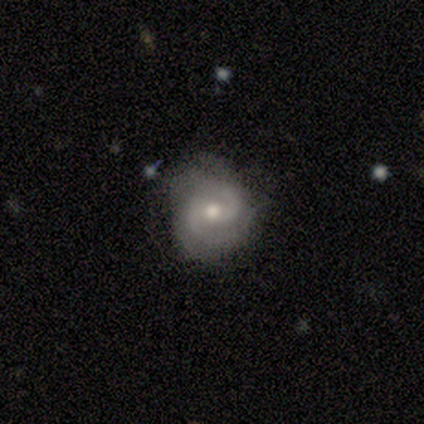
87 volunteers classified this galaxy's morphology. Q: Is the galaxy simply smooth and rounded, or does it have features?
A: featured or disk — 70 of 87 (80%).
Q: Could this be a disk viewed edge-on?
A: no — 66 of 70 (94%).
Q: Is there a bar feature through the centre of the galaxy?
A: no — 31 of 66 (47%).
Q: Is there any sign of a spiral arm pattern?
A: yes — 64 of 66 (97%).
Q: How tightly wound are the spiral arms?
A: medium — 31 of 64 (48%).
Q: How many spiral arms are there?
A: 2 — 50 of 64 (78%).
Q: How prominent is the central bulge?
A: moderate — 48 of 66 (73%).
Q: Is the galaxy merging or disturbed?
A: none — 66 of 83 (80%).